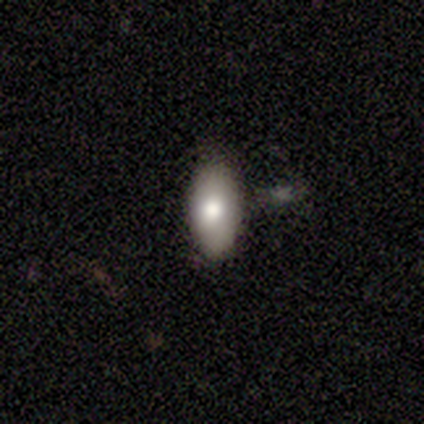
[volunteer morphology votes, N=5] Overall: smooth (80%). How rounded: in between (75%). Merging: none (100%).